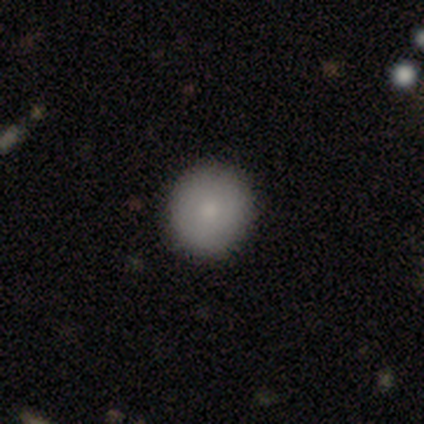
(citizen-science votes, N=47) smooth 81%, featured or disk 11%, star or artifact 9%. Down the decision tree: how rounded — round (92%); merging — none (100%).